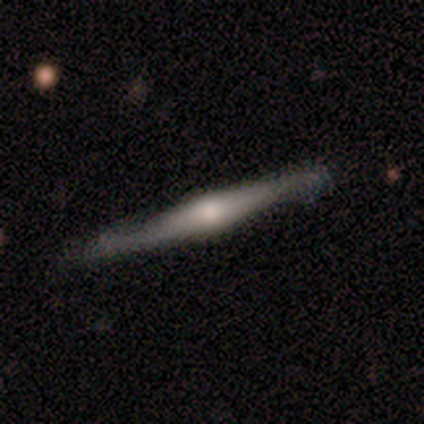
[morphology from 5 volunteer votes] featured or disk 100%, smooth 0%, star or artifact 0%. Down the decision tree: edge-on disk — yes (100%); edge-on bulge — rounded (100%); merging — none (60%).